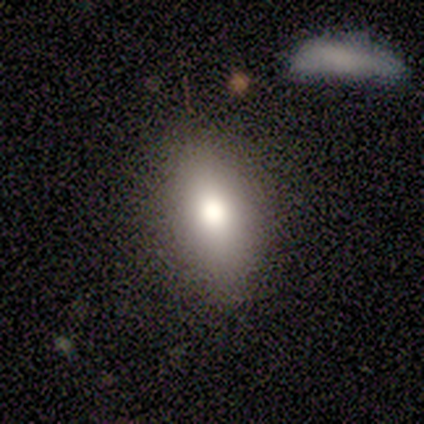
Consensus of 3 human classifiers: A smooth galaxy with no disk features (67%) that is in between round and cigar-shaped (50%, tied with cigar-shaped).

Vote fractions:
- Smooth or featured? smooth: 67% / star or artifact: 33% / featured or disk: 0%
- How rounded? in between: 50% (tied) / cigar-shaped: 50% (tied) / round: 0%
- Merging? none: 100% / minor disturbance: 0% / major disturbance: 0% / merger: 0%